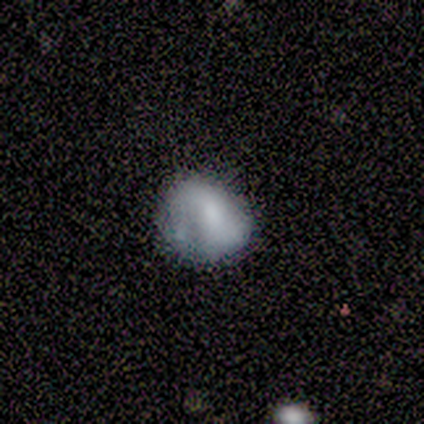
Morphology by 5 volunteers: smooth-or-featured: smooth: 60% | featured or disk: 40% | star or artifact: 0%
  how-rounded: round: 67% | in between: 33% | cigar-shaped: 0%
  merging: none: 80% | major disturbance: 20% | minor disturbance: 0% | merger: 0%